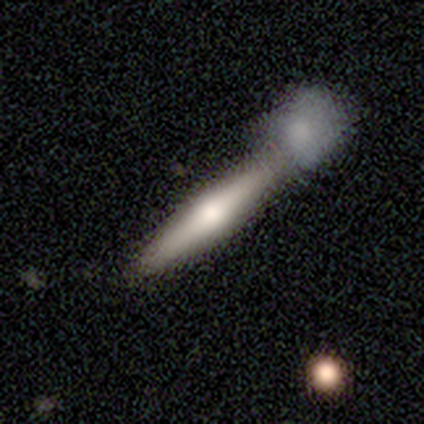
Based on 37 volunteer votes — smooth 51%, featured or disk 46%, star or artifact 3%. Down the decision tree: how rounded — cigar-shaped (79%); merging — merger (53%).